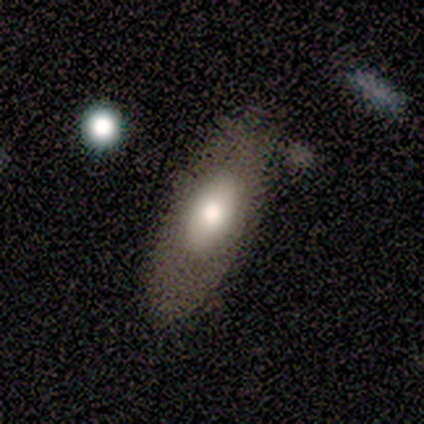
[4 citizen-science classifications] This is likely a smooth galaxy (75%). How rounded: likely in between (67%). Merging: clearly none (100%).